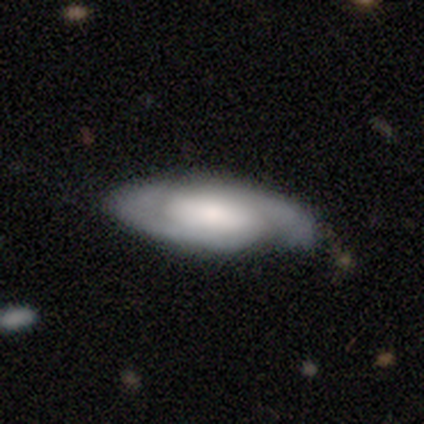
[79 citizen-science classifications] A featured or disk galaxy (65%) with no bar (51%), 2 (83%) medium (45%) spiral arms (98%) and a large central bulge (40%). Merging: none (48%).